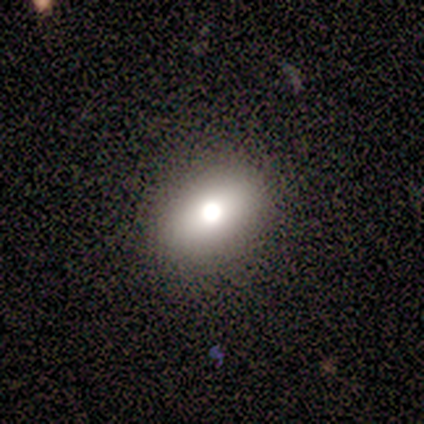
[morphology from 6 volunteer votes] Q: Smooth or featured?
A: smooth (50%); runner-up: featured or disk (33%)
Q: How rounded?
A: in between (100%)
Q: Merging?
A: none (100%)